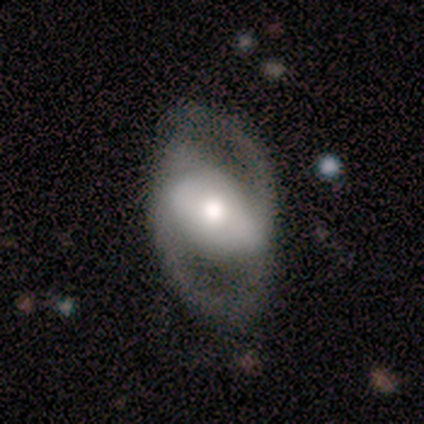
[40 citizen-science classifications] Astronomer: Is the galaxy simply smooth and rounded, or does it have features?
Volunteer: featured or disk — 72%.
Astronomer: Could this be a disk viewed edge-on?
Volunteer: no — 97%.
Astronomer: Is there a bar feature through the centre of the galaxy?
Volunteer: strong — 39%, tied with no at 39%.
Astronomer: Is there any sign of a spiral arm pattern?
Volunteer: yes — 54% (runner-up: no, 46%).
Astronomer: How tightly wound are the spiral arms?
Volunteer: medium — 60%.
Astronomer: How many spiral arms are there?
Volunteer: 2 — 87%.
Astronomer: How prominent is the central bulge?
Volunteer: moderate — 46% (runner-up: large, 43%).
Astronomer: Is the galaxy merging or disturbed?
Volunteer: none — 48%.